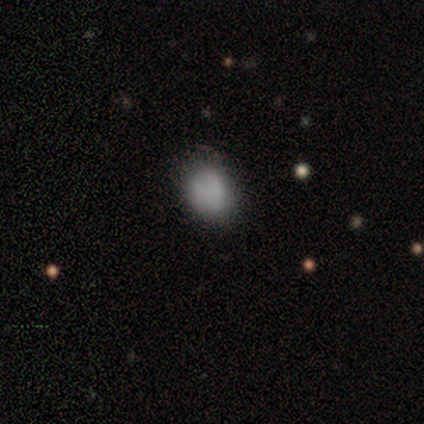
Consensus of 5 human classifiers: smooth 80%, featured or disk 20%, star or artifact 0%. Down the decision tree: how rounded — round (50%, tied with in between); merging — none (100%).